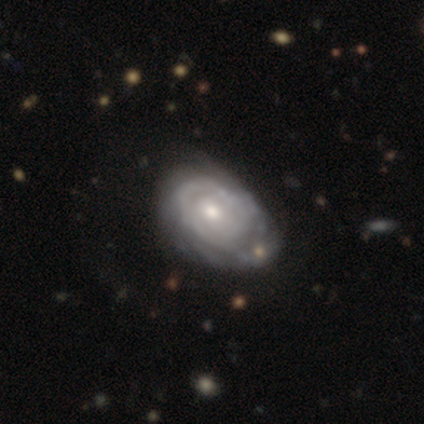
Morphology: type=featured or disk (87%); edge-on=no (100%); bar=no (76%); spiral arms=yes (91%); winding=tight (77%); arm count=can't tell (61%); bulge=moderate (56%); merging=none (39%).